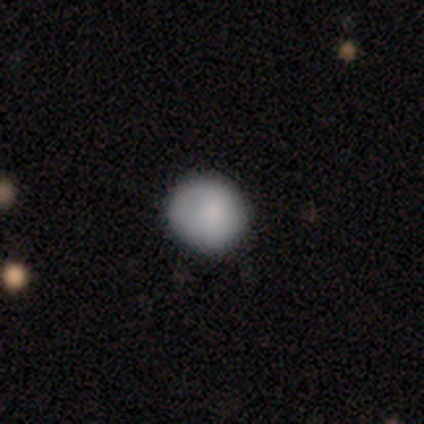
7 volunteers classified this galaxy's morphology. Q: Smooth or featured?
A: smooth (86%); runner-up: star or artifact (14%)
Q: How rounded?
A: round (83%); runner-up: in between (17%)
Q: Merging?
A: none (67%); runner-up: minor disturbance (33%)